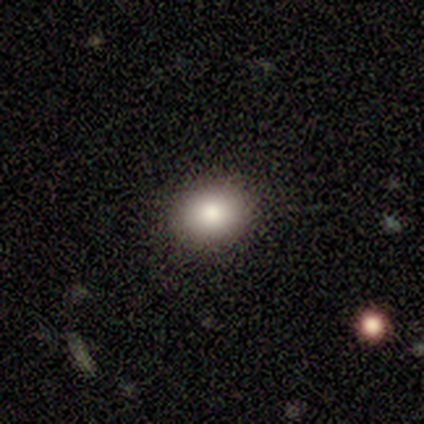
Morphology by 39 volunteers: Smooth or featured?
  - smooth: 77% *
  - star or artifact: 18%
  - featured or disk: 5%
How rounded?
  - in between: 57% *
  - round: 43%
  - cigar-shaped: 0%
Merging?
  - none: 91% *
  - merger: 6%
  - minor disturbance: 3%
  - major disturbance: 0%